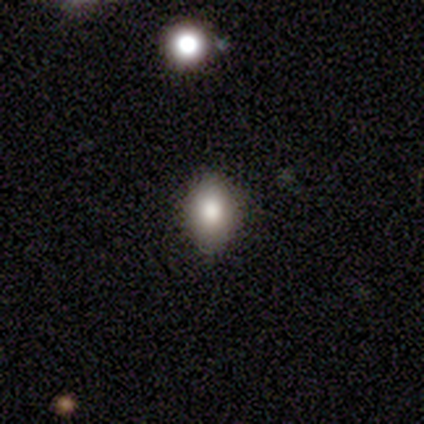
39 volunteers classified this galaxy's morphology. A smooth galaxy with no disk features (67%) that is in between round and cigar-shaped (69%). Merging: none (83%).